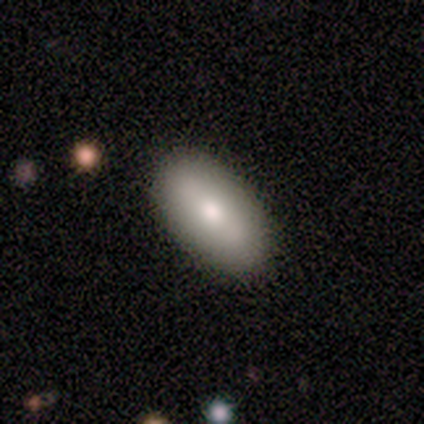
Volunteers were most divided on "merging": none: 60%, minor disturbance: 40%, major disturbance: 0%, merger: 0%. More confident: smooth or featured — smooth (100%); how rounded — in between (100%).